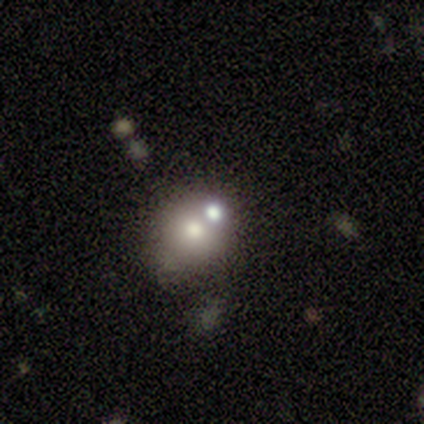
Morphology: type=smooth (67%); roundness=round (50%, tied with in between); merging=none (50%, tied with merger).